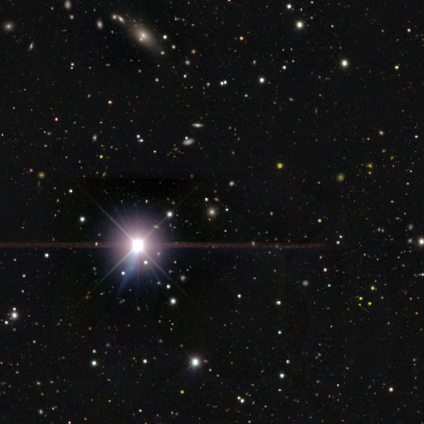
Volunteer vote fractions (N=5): Smooth or featured: star or artifact — 100%